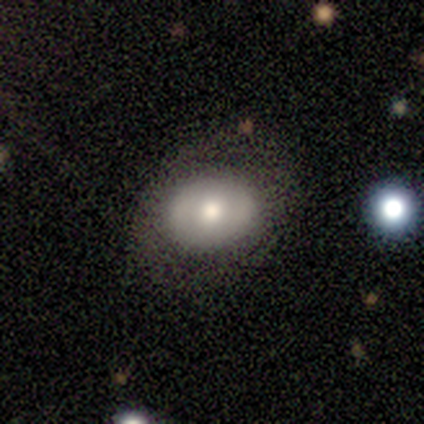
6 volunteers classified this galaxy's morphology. This appears to be a featured or disk galaxy (67%) with no bar (100%), no spiral arms (75%) and a large central bulge (50%). Merging: none (100%).